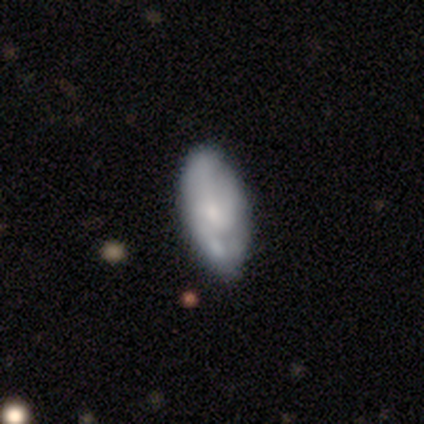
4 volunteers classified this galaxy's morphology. Smooth or featured? smooth (75%)
How rounded? in between (100%)
Merging? none (75%)